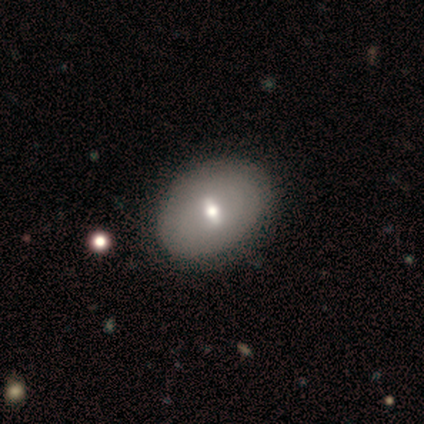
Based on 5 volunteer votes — Smooth or featured?
  - smooth: 80% *
  - featured or disk: 20%
  - star or artifact: 0%
How rounded?
  - round: 50% * (tied)
  - in between: 50% * (tied)
  - cigar-shaped: 0%
Merging?
  - none: 100% *
  - minor disturbance: 0%
  - major disturbance: 0%
  - merger: 0%